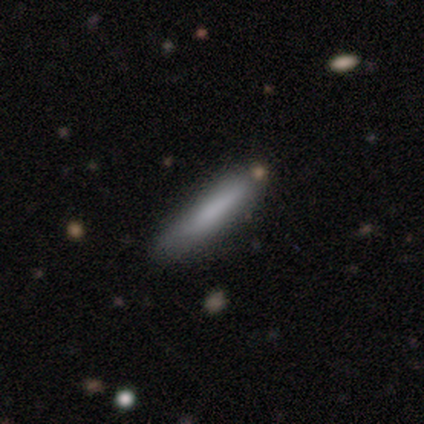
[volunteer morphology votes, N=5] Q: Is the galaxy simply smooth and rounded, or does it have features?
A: featured or disk — 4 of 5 (80%).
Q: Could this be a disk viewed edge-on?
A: yes — 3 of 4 (75%).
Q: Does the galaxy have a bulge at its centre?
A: none — 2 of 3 (67%).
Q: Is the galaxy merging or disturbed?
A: none — 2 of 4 (50%).